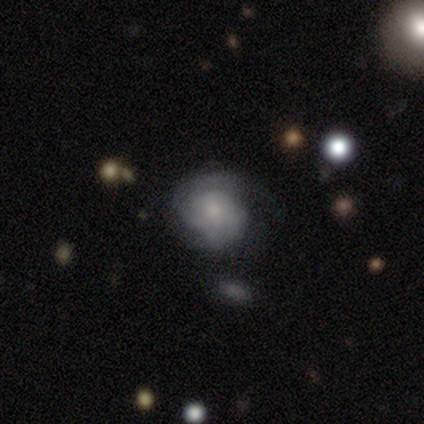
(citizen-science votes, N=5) Smooth or featured? featured or disk (80%)
Edge-on disk? no (100%)
Bar? no (100%)
Spiral arms? yes (50%, tied with no)
Spiral winding? tight (100%)
Spiral arm count? 4 (50%, tied with can't tell)
Bulge size? small (50%)
Merging? none (80%)